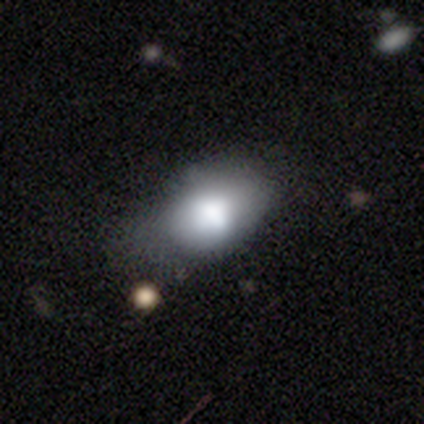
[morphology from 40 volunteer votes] type=smooth (72%); roundness=in between (79%); merging=minor disturbance (41%).